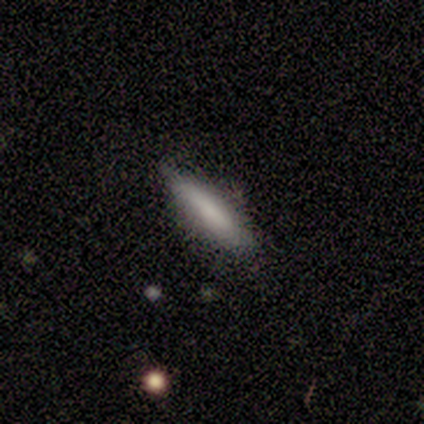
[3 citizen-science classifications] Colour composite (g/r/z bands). It shows a smooth galaxy with no disk features (67%) that is cigar-shaped (100%). Merging: minor disturbance (100%).